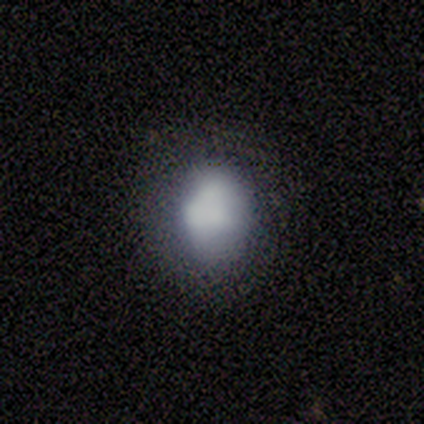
This is clearly a smooth galaxy (80%). How rounded: likely in between (75%). Merging: possibly none (50%, tied with minor disturbance).